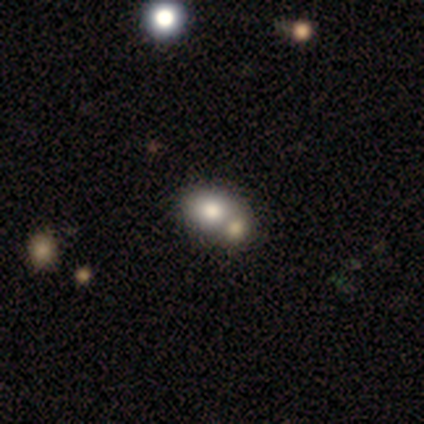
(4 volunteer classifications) A smooth galaxy with no disk features (50%, tied with featured or disk) that is round (50%, tied with in between).

Vote fractions:
- Smooth or featured? smooth: 50% (tied) / featured or disk: 50% (tied) / star or artifact: 0%
- How rounded? round: 50% (tied) / in between: 50% (tied) / cigar-shaped: 0%
- Merging? merger: 75% / none: 25% / minor disturbance: 0% / major disturbance: 0%